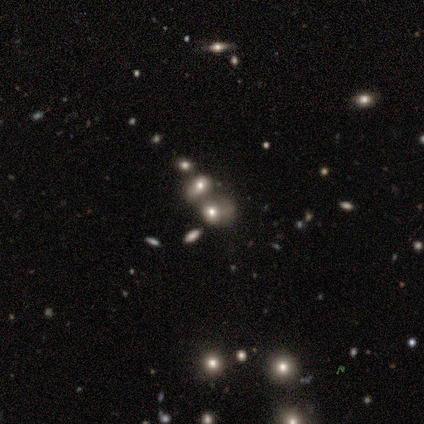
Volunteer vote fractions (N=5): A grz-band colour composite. It shows a smooth galaxy with no disk features (40%, tied with star or artifact) that is round (50%, tied with in between). Merging: merger (67%).